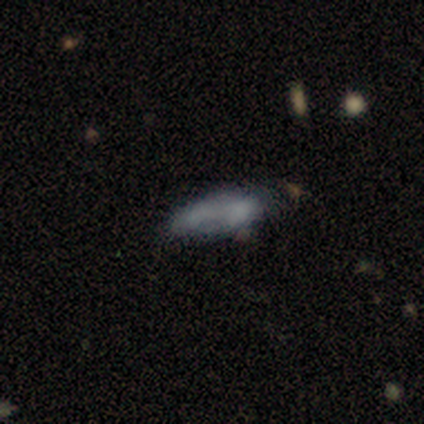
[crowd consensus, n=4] smooth-or-featured: smooth: 75% | star or artifact: 25% | featured or disk: 0%
  how-rounded: in between: 100% | round: 0% | cigar-shaped: 0%
  merging: none: 67% | minor disturbance: 33% | major disturbance: 0% | merger: 0%